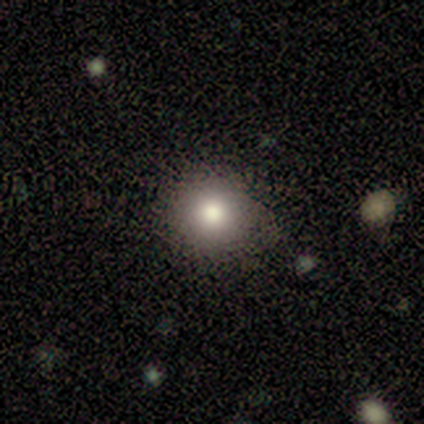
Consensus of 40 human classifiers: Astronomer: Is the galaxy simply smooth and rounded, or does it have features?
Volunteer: smooth — 75%.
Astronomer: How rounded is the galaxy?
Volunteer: round — 87%.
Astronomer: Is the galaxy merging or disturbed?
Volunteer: none — 88%.